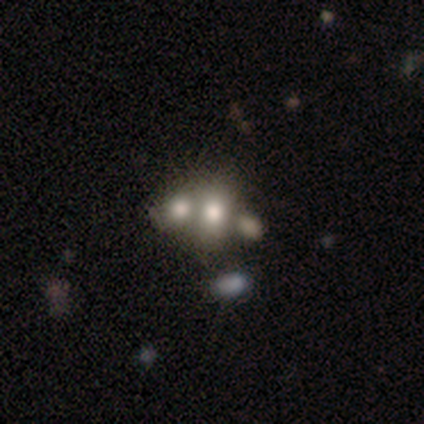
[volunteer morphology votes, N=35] Volunteers were most divided on "how rounded" (2-way tie): round: 50%, in between: 50%, cigar-shaped: 0%. More confident: merging — merger (64%); smooth or featured — smooth (63%).